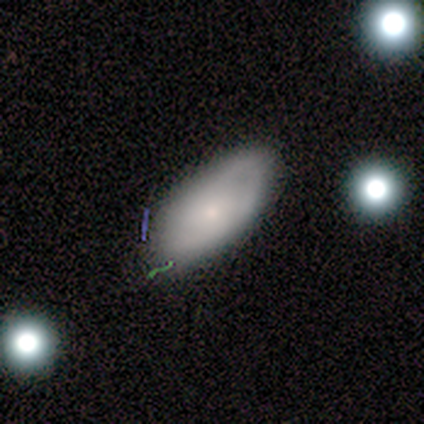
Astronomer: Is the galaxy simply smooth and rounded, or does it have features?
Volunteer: smooth — 60% (runner-up: featured or disk, 40%).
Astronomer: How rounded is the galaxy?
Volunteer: in between — 100%.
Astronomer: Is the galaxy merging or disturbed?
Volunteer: none — 80%.